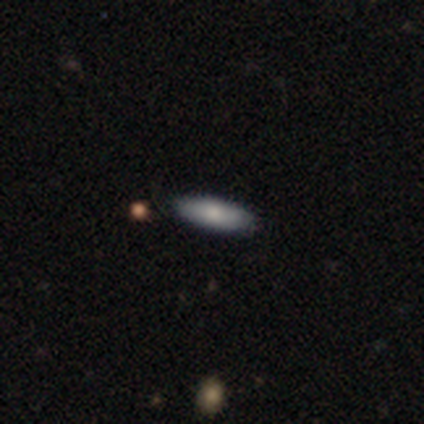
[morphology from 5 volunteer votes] Smooth or featured? 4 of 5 (80%) said smooth. How rounded? 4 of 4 (100%) said in between. Merging? 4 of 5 (80%) said none.